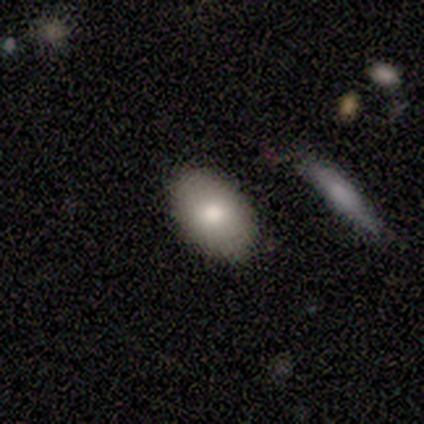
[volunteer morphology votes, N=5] Smooth or featured: smooth — 60% (featured or disk — 20%)
How rounded: in between — 67% (round — 33%)
Merging: none — 50% (minor disturbance — 25%)